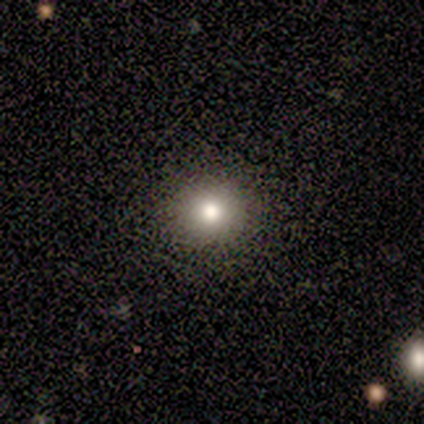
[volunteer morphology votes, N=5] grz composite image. It shows a smooth galaxy with no disk features (60%) that is round (100%). Merging: none (100%).